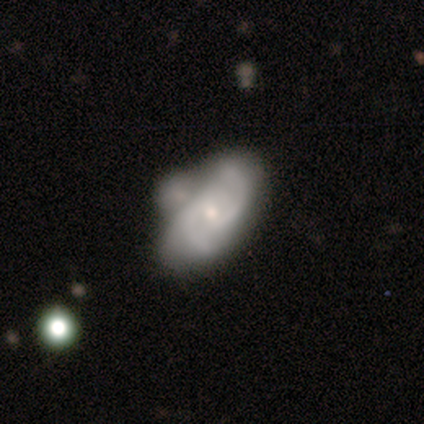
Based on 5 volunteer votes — A featured or disk galaxy (80%) with a strong bar (33%, tied with weak and no), 2 (100%) medium (100%) spiral arms (100%) and a small central bulge (67%).

Vote fractions:
- Smooth or featured? featured or disk: 80% / smooth: 20% / star or artifact: 0%
- Edge-on disk? no: 75% / yes: 25%
- Bar? strong: 33% (tied) / weak: 33% (tied) / no: 33% (tied)
- Spiral arms? yes: 100% / no: 0%
- Spiral winding? medium: 100% / tight: 0% / loose: 0%
- Spiral arm count? 2: 100% / 1: 0% / 3: 0% / 4: 0% / more than 4: 0% / can't tell: 0%
- Bulge size? small: 67% / moderate: 33% / dominant: 0% / large: 0% / none: 0%
- Merging? minor disturbance: 40% / none: 20% / major disturbance: 20% / merger: 20%